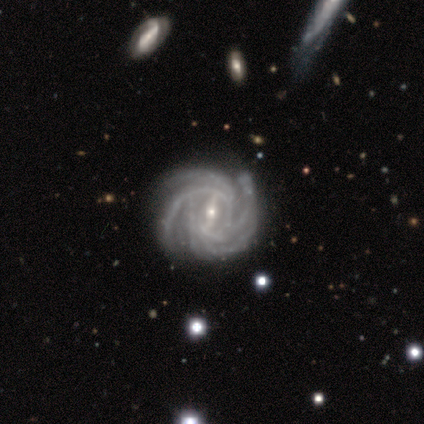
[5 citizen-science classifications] Smooth or featured: featured or disk — 80% (star or artifact — 20%)
Edge-on disk: no — 100%
Bar: weak — 50% (strong — 25%)
Spiral arms: yes — 100%
Spiral winding: tight — 75% (medium — 25%)
Spiral arm count: 3 — 50% (tied with 4 — 50%)
Bulge size: moderate — 50% (tied with small — 50%)
Merging: none — 75% (minor disturbance — 25%)